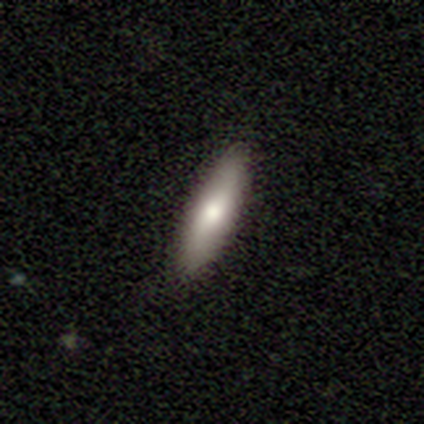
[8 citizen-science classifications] A smooth galaxy with no disk features (62%) that is cigar-shaped (80%).

Vote fractions:
- Smooth or featured? smooth: 62% / featured or disk: 38% / star or artifact: 0%
- How rounded? cigar-shaped: 80% / in between: 20% / round: 0%
- Merging? none: 100% / minor disturbance: 0% / major disturbance: 0% / merger: 0%